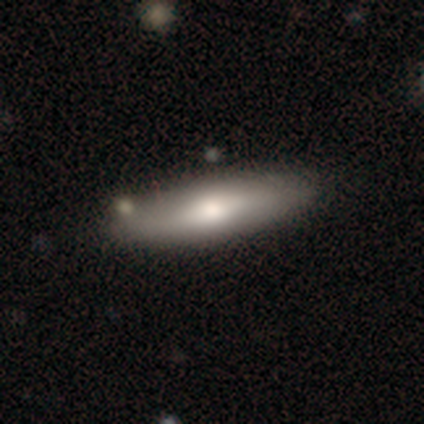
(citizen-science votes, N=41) smooth-or-featured: smooth: 46% | featured or disk: 44% | star or artifact: 10%
  how-rounded: cigar-shaped: 58% | in between: 37% | round: 5%
  merging: none: 46% | merger: 8% | minor disturbance: 5% | major disturbance: 3%